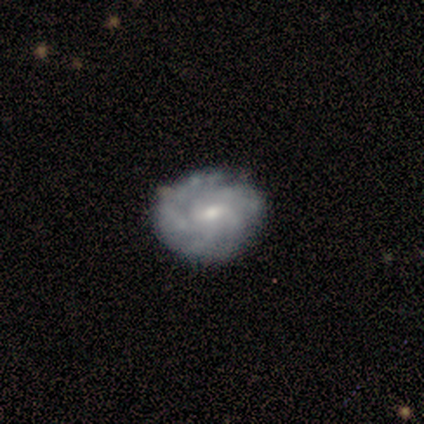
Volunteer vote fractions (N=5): featured or disk 80%, smooth 20%, star or artifact 0%. Down the decision tree: edge-on disk — no (100%); bar — weak (75%); spiral arms — yes (75%); spiral arm count — can't tell (67%); spiral winding — medium (67%); bulge size — small (50%); merging — none (100%).